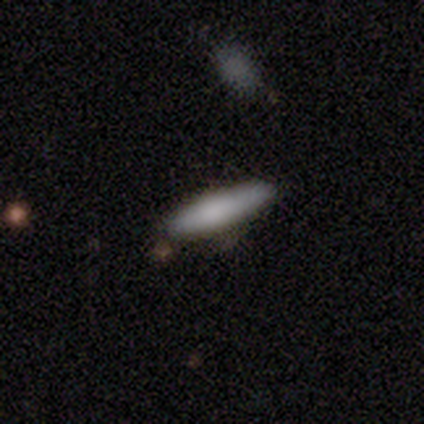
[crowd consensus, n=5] Smooth or featured?
  - smooth: 100% *
  - featured or disk: 0%
  - star or artifact: 0%
How rounded?
  - cigar-shaped: 100% *
  - round: 0%
  - in between: 0%
Merging?
  - none: 80% *
  - minor disturbance: 20%
  - major disturbance: 0%
  - merger: 0%